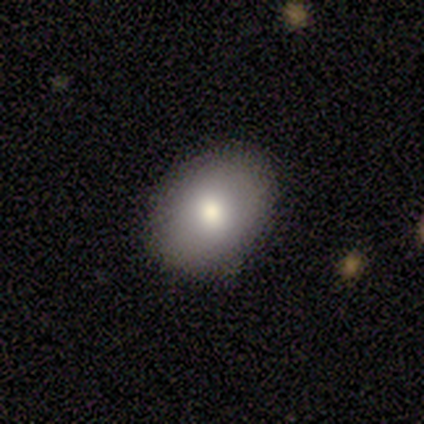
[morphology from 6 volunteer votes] This is clearly a smooth galaxy (83%). How rounded: likely round (60%). Merging: clearly none (100%).